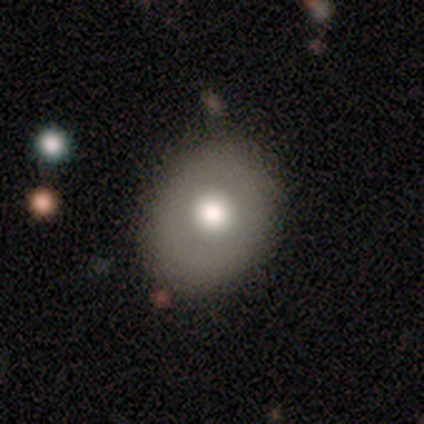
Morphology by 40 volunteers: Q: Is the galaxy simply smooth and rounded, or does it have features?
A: smooth — 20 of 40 (50%).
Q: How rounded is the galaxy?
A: in between — 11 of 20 (55%).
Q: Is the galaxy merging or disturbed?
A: none — 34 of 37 (92%).